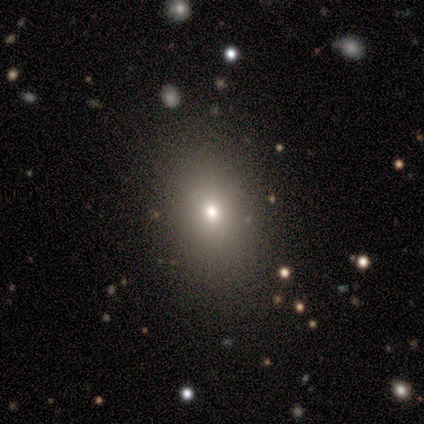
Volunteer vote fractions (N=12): Smooth or featured? smooth (75%)
How rounded? in between (78%)
Merging? none (90%)